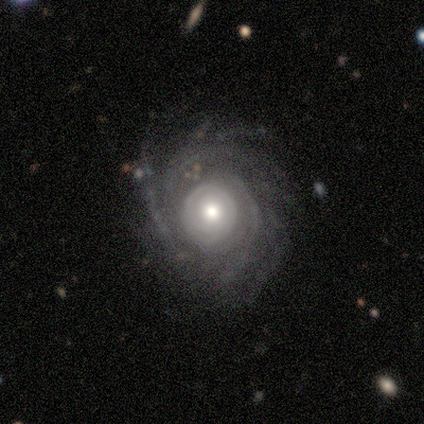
featured or disk 100%, smooth 0%, star or artifact 0%. Down the decision tree: edge-on disk — no (80%); bar — no (100%); spiral arms — yes (100%); spiral arm count — more than 4 (75%); spiral winding — tight (75%); bulge size — moderate (75%); merging — none (80%).